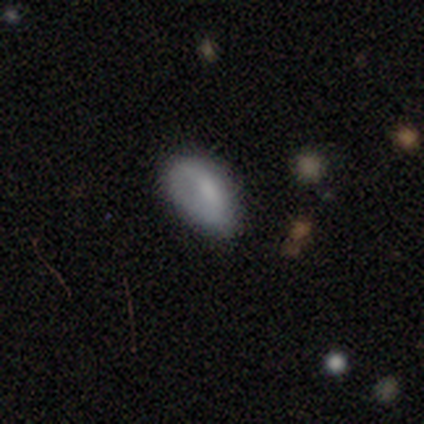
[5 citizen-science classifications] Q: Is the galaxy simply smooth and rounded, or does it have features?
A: smooth — 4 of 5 (80%).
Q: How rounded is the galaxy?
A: in between — 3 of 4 (75%).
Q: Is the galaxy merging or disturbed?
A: none — 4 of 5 (80%).